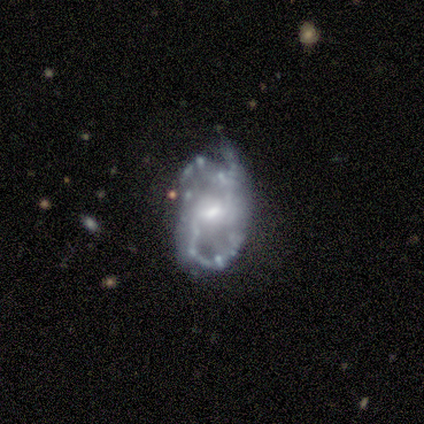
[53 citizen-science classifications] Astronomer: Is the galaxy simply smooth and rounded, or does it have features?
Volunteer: featured or disk — 81%.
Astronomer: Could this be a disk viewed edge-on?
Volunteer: no — 100%.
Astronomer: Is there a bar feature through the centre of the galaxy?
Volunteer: weak — 56% (runner-up: no, 33%).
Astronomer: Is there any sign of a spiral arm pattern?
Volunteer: yes — 91%.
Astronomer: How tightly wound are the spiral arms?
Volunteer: medium — 54% (runner-up: loose, 31%).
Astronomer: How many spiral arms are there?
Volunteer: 2 — 56%.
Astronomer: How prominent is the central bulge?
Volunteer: moderate — 65%.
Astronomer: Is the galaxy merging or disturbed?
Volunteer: none — 39% (runner-up: minor disturbance, 27%).